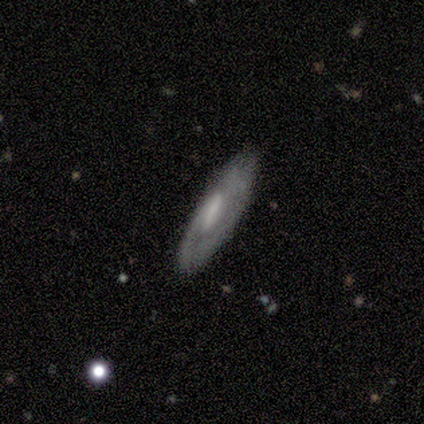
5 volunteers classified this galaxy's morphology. Overall: featured or disk (60%; smooth 40%). Edge-on disk: no (100%). Bar: strong (33%, tied with weak and no). Spiral arms: yes (67%; no 33%). Spiral arm count: can't tell (100%). Spiral winding: tight (50%, tied with medium). Bulge size: moderate (67%; none 33%). Merging: none (100%).